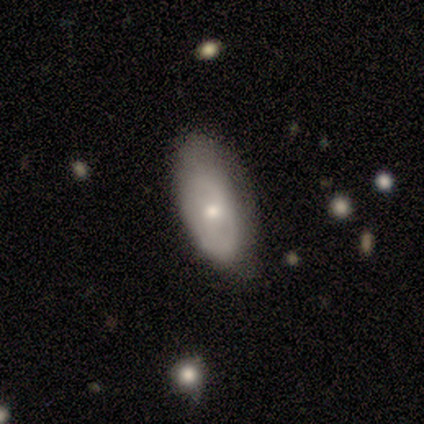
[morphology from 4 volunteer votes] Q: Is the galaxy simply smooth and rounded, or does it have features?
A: smooth — 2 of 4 (50%, tied with featured or disk).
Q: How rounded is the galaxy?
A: in between — 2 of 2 (100%).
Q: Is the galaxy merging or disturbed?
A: none — 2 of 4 (50%, tied with minor disturbance).